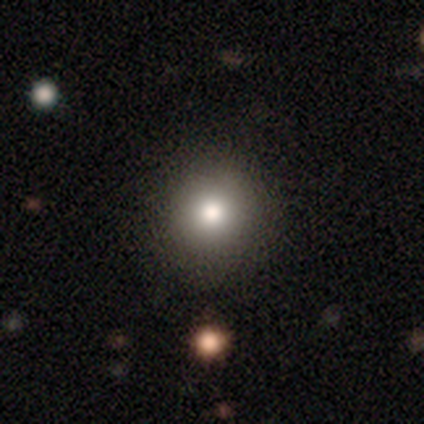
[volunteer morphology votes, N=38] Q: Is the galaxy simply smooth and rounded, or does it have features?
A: smooth — 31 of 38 (82%).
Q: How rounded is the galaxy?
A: round — 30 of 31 (97%).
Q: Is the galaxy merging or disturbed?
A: none — 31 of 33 (94%).